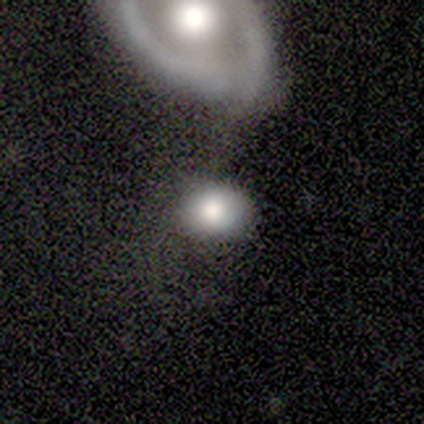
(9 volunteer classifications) Smooth or featured?
  - smooth: 67% *
  - featured or disk: 22%
  - star or artifact: 11%
How rounded?
  - round: 67% *
  - in between: 33%
  - cigar-shaped: 0%
Merging?
  - none: 50% *
  - merger: 38%
  - minor disturbance: 12%
  - major disturbance: 0%